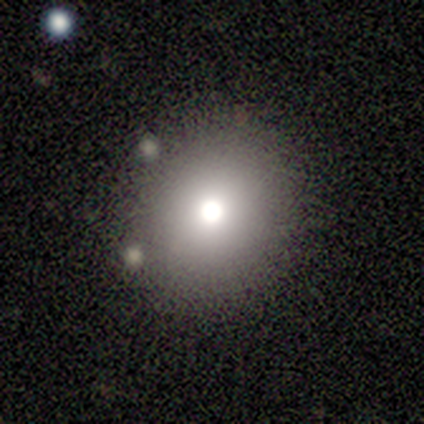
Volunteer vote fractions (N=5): Morphology: type=smooth (80%); roundness=round (100%); merging=none (100%).